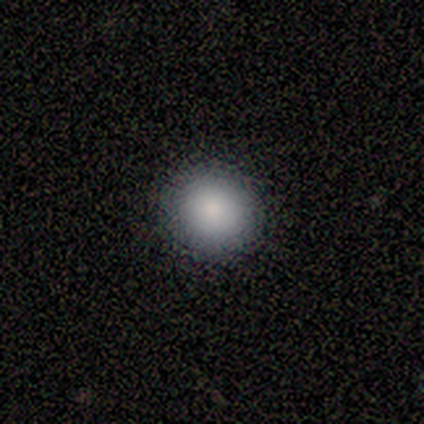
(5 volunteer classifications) smooth-or-featured: smooth: 80% | featured or disk: 20% | star or artifact: 0%
  how-rounded: round: 100% | in between: 0% | cigar-shaped: 0%
  merging: none: 100% | minor disturbance: 0% | major disturbance: 0% | merger: 0%